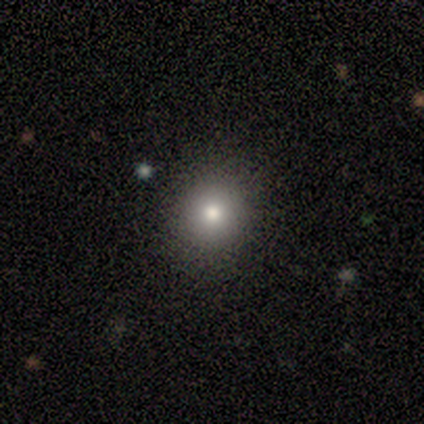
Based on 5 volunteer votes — Volunteers were most divided on "smooth or featured": smooth: 80%, featured or disk: 20%, star or artifact: 0%. More confident: how rounded — round (100%); merging — none (80%).